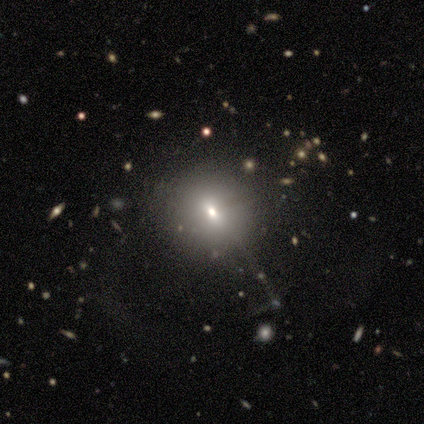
Overall: smooth (40%, tied with star or artifact). How rounded: round (100%). Merging: none (100%).